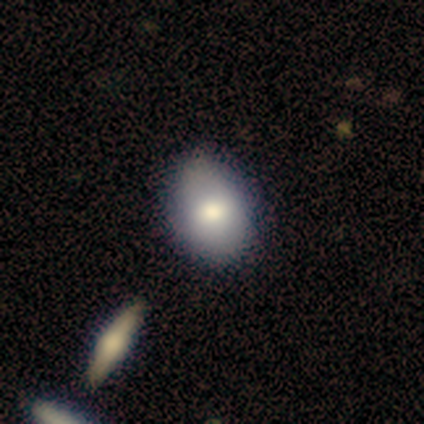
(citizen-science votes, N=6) Volunteers were most divided on "how rounded": in between: 80%, round: 20%, cigar-shaped: 0%. More confident: smooth or featured — smooth (83%); merging — none (83%).